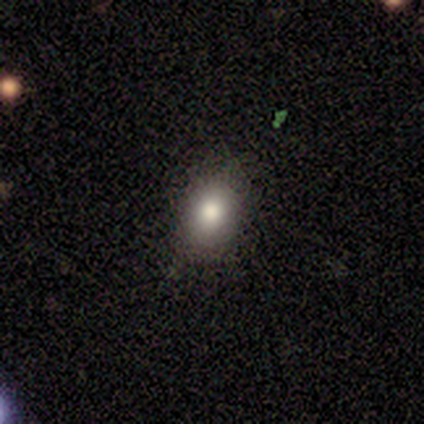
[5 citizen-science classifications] smooth-or-featured: smooth: 60% | featured or disk: 40% | star or artifact: 0%
  how-rounded: in between: 100% | round: 0% | cigar-shaped: 0%
  merging: none: 100% | minor disturbance: 0% | major disturbance: 0% | merger: 0%